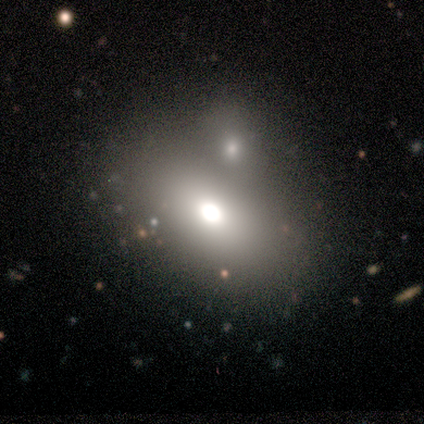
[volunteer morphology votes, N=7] Q: Smooth or featured?
A: smooth (57%); runner-up: featured or disk (29%)
Q: How rounded?
A: in between (100%)
Q: Merging?
A: none (50%); tied with: merger (50%)